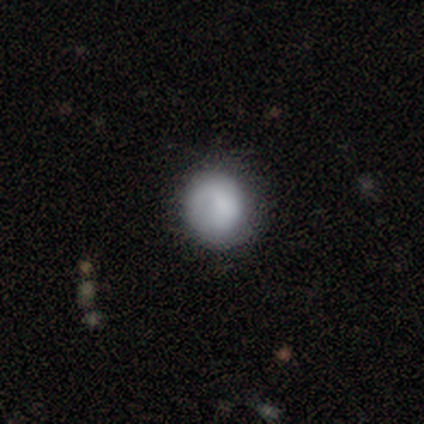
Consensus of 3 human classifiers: Smooth or featured?
  - smooth: 67% *
  - featured or disk: 33%
  - star or artifact: 0%
How rounded?
  - round: 50% * (tied)
  - in between: 50% * (tied)
  - cigar-shaped: 0%
Merging?
  - none: 100% *
  - minor disturbance: 0%
  - major disturbance: 0%
  - merger: 0%